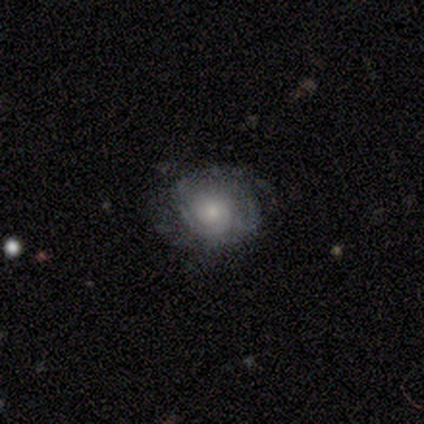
Morphology: type=featured or disk (80%); edge-on=no (100%); bar=no (100%); spiral arms=yes (75%); winding=medium (67%); arm count=2 (33%, tied with 4 and can't tell); bulge=small (75%); merging=none (60%).